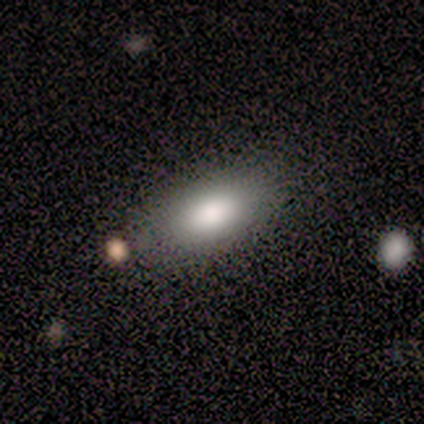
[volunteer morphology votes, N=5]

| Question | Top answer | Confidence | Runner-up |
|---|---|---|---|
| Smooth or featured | smooth | 80% | featured or disk (20%) |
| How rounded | in between | 100% | — |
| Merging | none | 80% | merger (20%) |